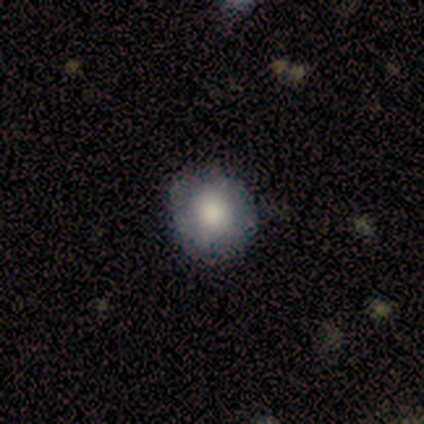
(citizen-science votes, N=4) Smooth or featured? 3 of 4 (75%) said smooth. How rounded? 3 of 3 (100%) said round. Merging? 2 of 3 (67%) said none.